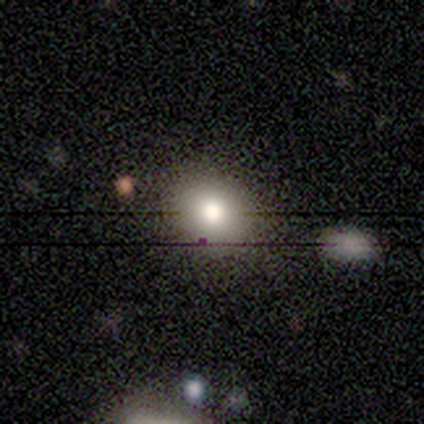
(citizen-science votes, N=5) A smooth galaxy with no disk features (40%, tied with star or artifact) that is round (50%, tied with in between). Merging: none (100%).